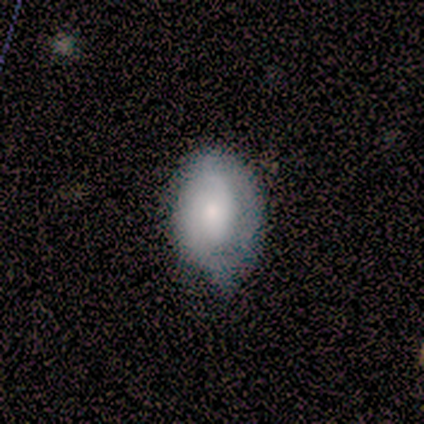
This is marginally a smooth galaxy (40%, tied with featured or disk). How rounded: clearly in between (100%). Merging: likely none (75%).